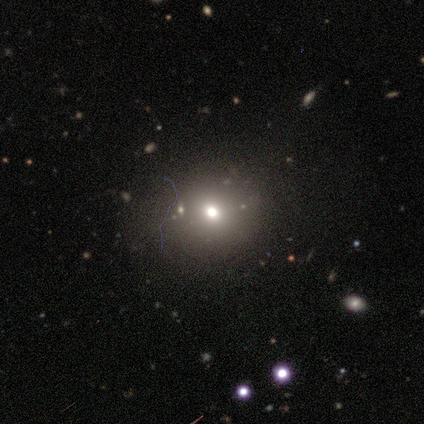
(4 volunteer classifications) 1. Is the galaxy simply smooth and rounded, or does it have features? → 50% smooth, 25% featured or disk, 25% star or artifact.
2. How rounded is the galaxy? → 100% round, 0% in between, 0% cigar-shaped.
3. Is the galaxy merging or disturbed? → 100% none, 0% minor disturbance, 0% major disturbance, 0% merger.